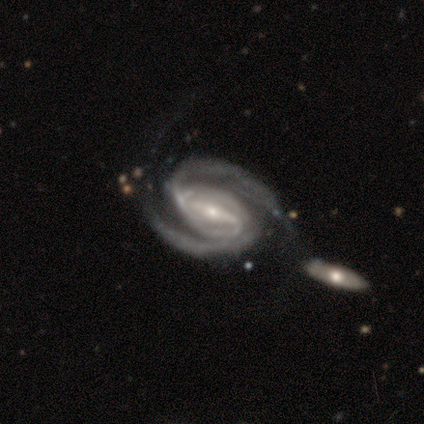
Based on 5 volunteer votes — Smooth or featured?
  - featured or disk: 80% *
  - star or artifact: 20%
  - smooth: 0%
Edge-on disk?
  - no: 100% *
  - yes: 0%
Bar?
  - strong: 100% *
  - weak: 0%
  - no: 0%
Spiral arms?
  - yes: 100% *
  - no: 0%
Spiral winding?
  - medium: 100% *
  - tight: 0%
  - loose: 0%
Spiral arm count?
  - 2: 100% *
  - 1: 0%
  - 3: 0%
  - 4: 0%
  - more than 4: 0%
  - can't tell: 0%
Bulge size?
  - small: 100% *
  - dominant: 0%
  - large: 0%
  - moderate: 0%
  - none: 0%
Merging?
  - minor disturbance: 75% *
  - major disturbance: 25%
  - none: 0%
  - merger: 0%